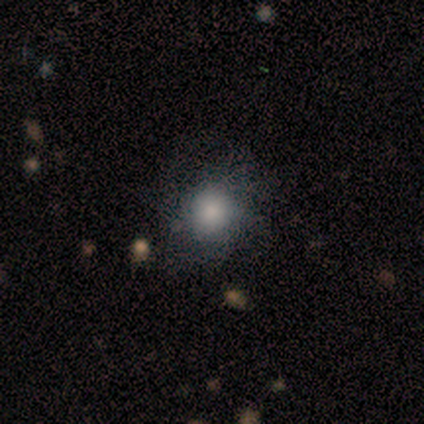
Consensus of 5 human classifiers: Volunteers were most divided on "merging" (2-way tie): none: 40%, minor disturbance: 40%, major disturbance: 20%, merger: 0%. More confident: smooth or featured — smooth (100%); how rounded — round (80%).